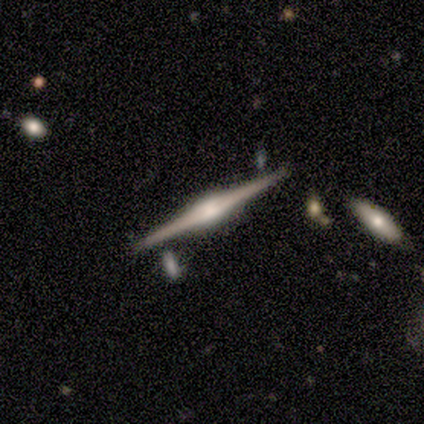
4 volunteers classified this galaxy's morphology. smooth_or_featured: featured or disk (p=1.00)
disk_edge_on: yes (p=1.00)
edge_on_bulge: rounded (p=0.75) [alt: boxy p=0.25]
merging: none (p=0.75) [alt: minor disturbance p=0.25]